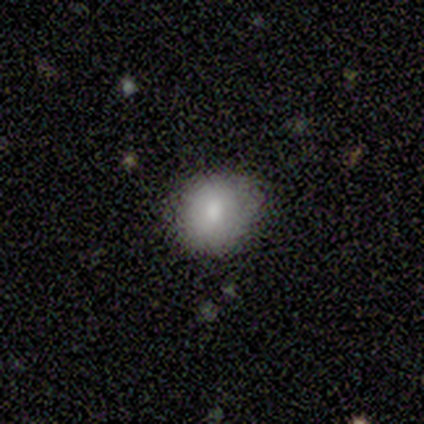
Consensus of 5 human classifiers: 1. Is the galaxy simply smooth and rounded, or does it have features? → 80% smooth, 20% featured or disk, 0% star or artifact.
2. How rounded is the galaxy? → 100% round, 0% in between, 0% cigar-shaped.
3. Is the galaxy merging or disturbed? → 60% minor disturbance, 40% none, 0% major disturbance, 0% merger.